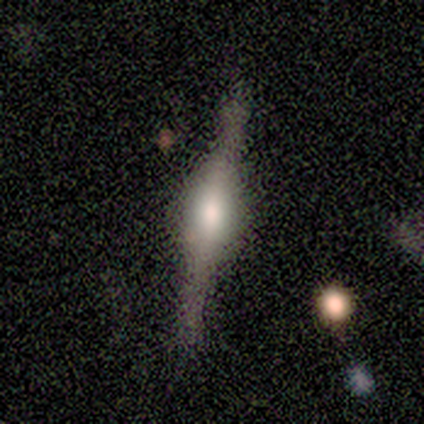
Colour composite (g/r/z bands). It shows a featured or disk galaxy (100%) viewed edge-on (100%) with a rounded central bulge (60%). Merging: none (80%).